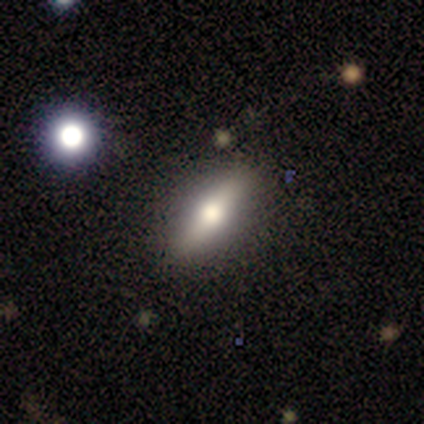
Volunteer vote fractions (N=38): Smooth or featured: smooth — 61% (featured or disk — 34%)
How rounded: in between — 61% (cigar-shaped — 39%)
Merging: none — 86% (minor disturbance — 11%)